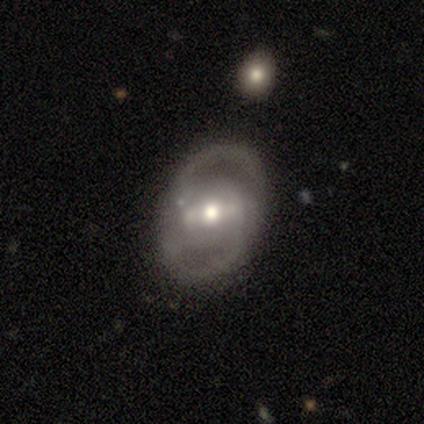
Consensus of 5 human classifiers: Morphology: type=featured or disk (80%); edge-on=no (75%); bar=weak (100%); spiral arms=yes (100%); winding=tight (33%, tied with medium and loose); arm count=2 (100%); bulge=moderate (100%); merging=none (80%).